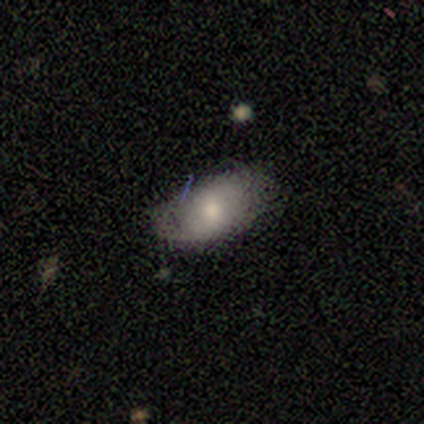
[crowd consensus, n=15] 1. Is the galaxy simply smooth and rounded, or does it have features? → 73% smooth, 20% featured or disk, 7% star or artifact.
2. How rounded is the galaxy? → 100% in between, 0% round, 0% cigar-shaped.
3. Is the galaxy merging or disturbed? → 57% none, 43% minor disturbance, 0% major disturbance, 0% merger.